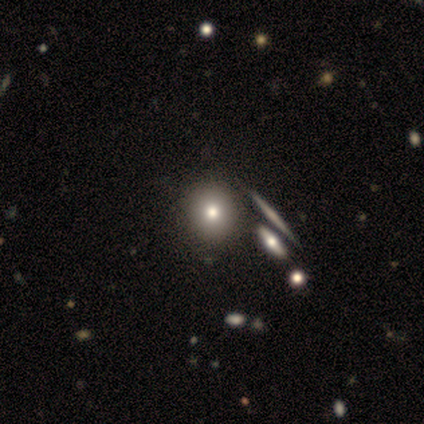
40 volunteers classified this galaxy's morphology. Smooth or featured: smooth — 70% (featured or disk — 18%)
How rounded: round — 100%
Merging: none — 66% (merger — 14%)